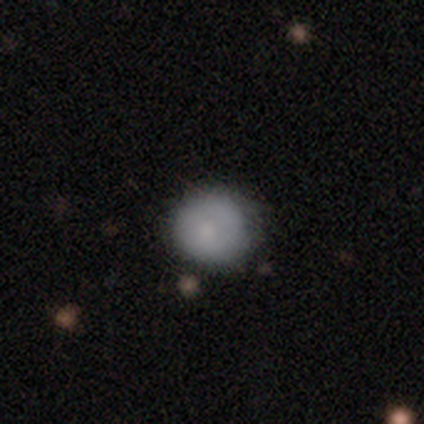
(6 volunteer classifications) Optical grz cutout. It shows a smooth galaxy with no disk features (83%) that is round (80%). Merging: none (100%).